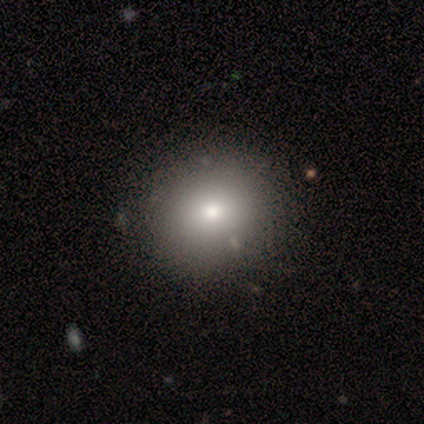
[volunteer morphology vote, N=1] Smooth or featured? 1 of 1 (100%) said smooth. How rounded? 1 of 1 (100%) said round. Merging? 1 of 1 (100%) said minor disturbance.